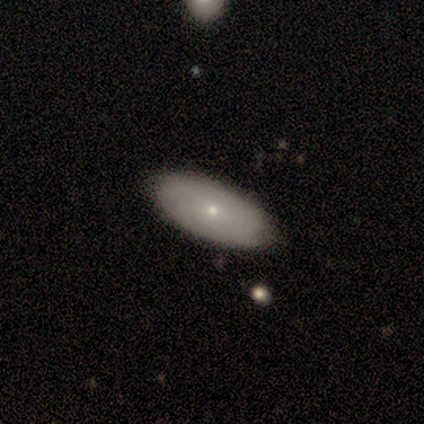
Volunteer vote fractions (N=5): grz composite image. It shows a featured or disk galaxy (60%) with no bar (67%), 3 (33%, tied with more than 4 and can't tell) tight (100%) spiral arms (100%) and a small central bulge (100%). Merging: none (100%).